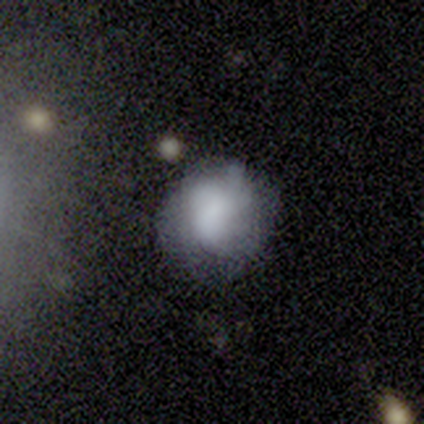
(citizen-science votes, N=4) This is likely a smooth galaxy (75%). How rounded: likely round (67%). Merging: likely none (75%).